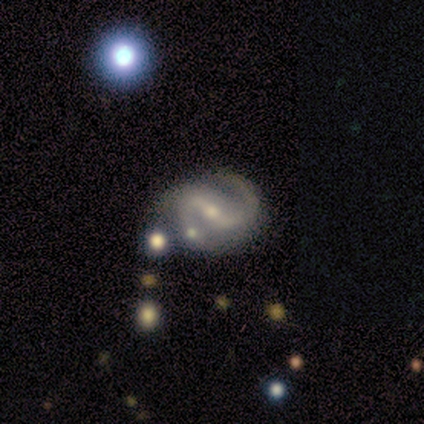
This appears to be a featured or disk galaxy (89%) with a strong bar (48%), 2 (100%) medium (51%) spiral arms (92%) and a moderate central bulge (48%). Merging: none (67%).